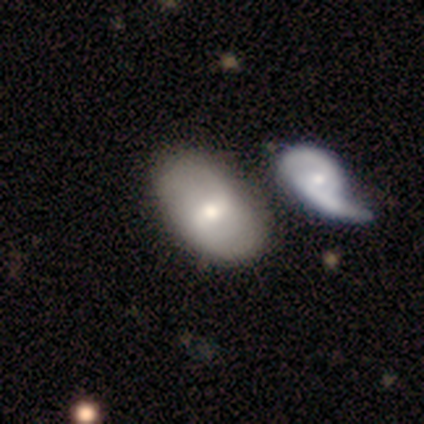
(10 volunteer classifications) smooth-or-featured: featured or disk: 60% | smooth: 40% | star or artifact: 0%
  disk-edge-on: no: 100% | yes: 0%
    bar: weak: 67% | no: 33% | strong: 0%
    has-spiral-arms: no: 83% | yes: 17%
    bulge-size: small: 50% | moderate: 33% | large: 17% | dominant: 0% | none: 0%
  merging: none: 50% | merger: 30% | minor disturbance: 10% | major disturbance: 10%